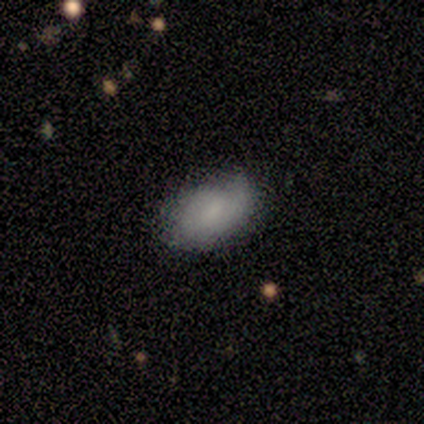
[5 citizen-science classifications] smooth-or-featured: smooth: 60% | featured or disk: 40% | star or artifact: 0%
  how-rounded: in between: 100% | round: 0% | cigar-shaped: 0%
  merging: none: 80% | minor disturbance: 20% | major disturbance: 0% | merger: 0%